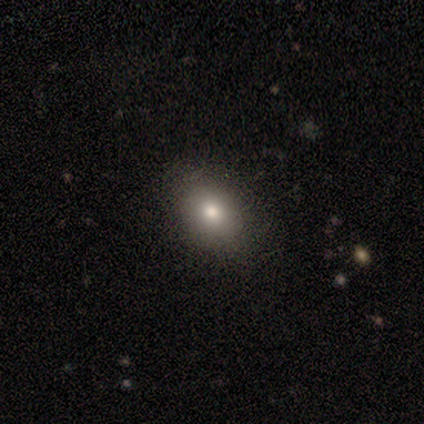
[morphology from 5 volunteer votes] Smooth or featured? smooth (60%)
How rounded? in between (67%)
Merging? none (100%)